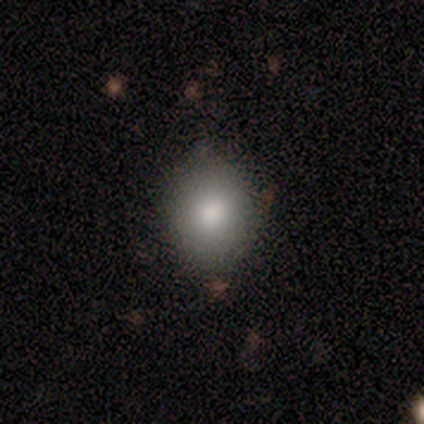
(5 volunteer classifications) Smooth or featured? smooth (80%)
How rounded? round (50%, tied with in between)
Merging? none (100%)